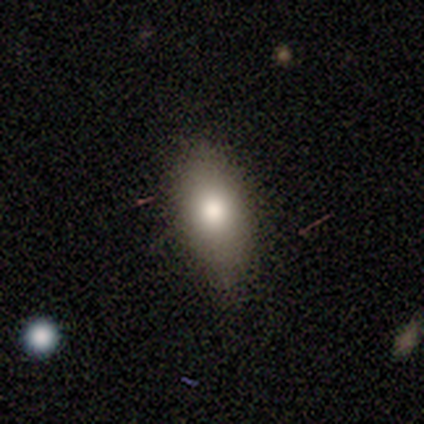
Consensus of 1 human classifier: This is clearly a smooth galaxy (100%). How rounded: clearly in between (100%). Merging: clearly none (100%).